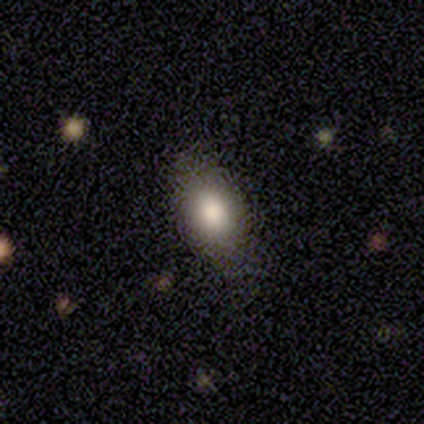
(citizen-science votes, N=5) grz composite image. It shows a smooth galaxy with no disk features (80%) that is in between round and cigar-shaped (100%). Merging: none (100%).